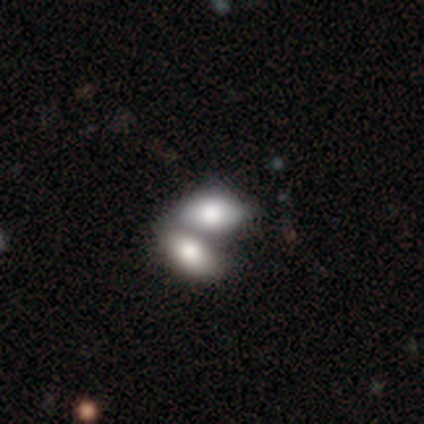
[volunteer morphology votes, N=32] Volunteers were most divided on "smooth or featured": smooth: 81%, featured or disk: 12%, star or artifact: 6%. More confident: how rounded — in between (88%); merging — merger (83%).